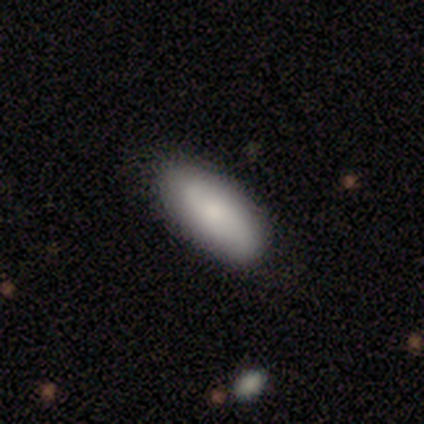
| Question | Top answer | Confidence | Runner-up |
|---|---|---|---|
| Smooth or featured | smooth | 100% | — |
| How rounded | in between | 75% | round (25%) |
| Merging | none | 100% | — |